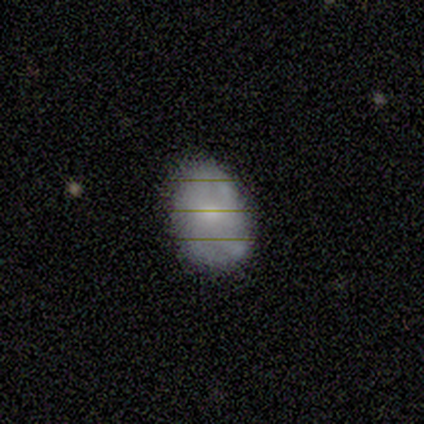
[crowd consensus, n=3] Smooth or featured? 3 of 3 (100%) said smooth. How rounded? 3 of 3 (100%) said in between. Merging? 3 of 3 (100%) said none.